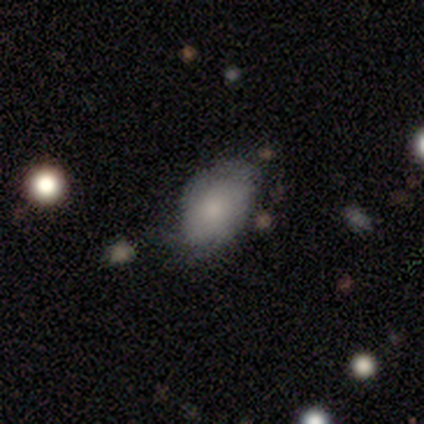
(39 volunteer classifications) Volunteers were most divided on "merging": minor disturbance: 39%, none: 31%, merger: 3%, major disturbance: 0%. More confident: how rounded — in between (92%); smooth or featured — smooth (62%).